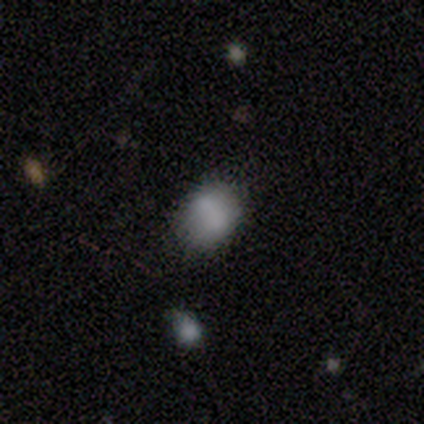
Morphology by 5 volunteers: Smooth or featured? smooth (60%)
How rounded? in between (67%)
Merging? none (75%)